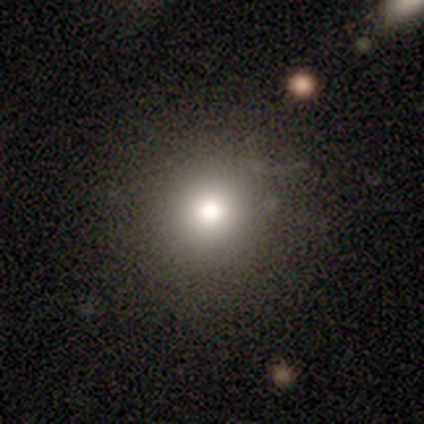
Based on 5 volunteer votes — smooth_or_featured: smooth (p=1.00)
how_rounded: round (p=1.00)
merging: none (p=0.80) [alt: minor disturbance p=0.20]